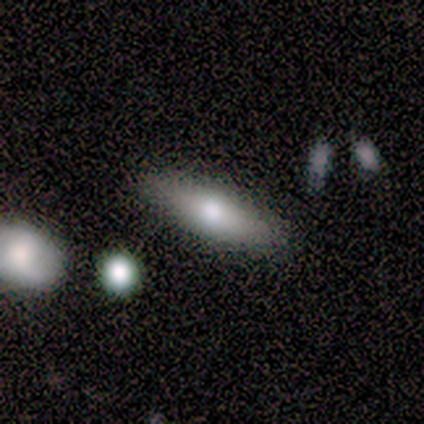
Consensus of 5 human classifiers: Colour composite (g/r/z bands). It shows a smooth galaxy with no disk features (60%) that is cigar-shaped (100%). Merging: none (80%).